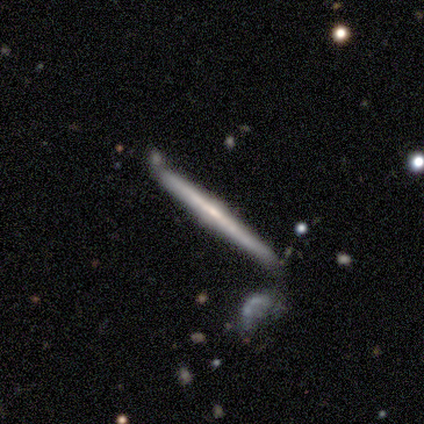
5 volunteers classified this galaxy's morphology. Overall: featured or disk (100%). Edge-on disk: yes (100%). Edge-on bulge: rounded (80%). Merging: none (100%).